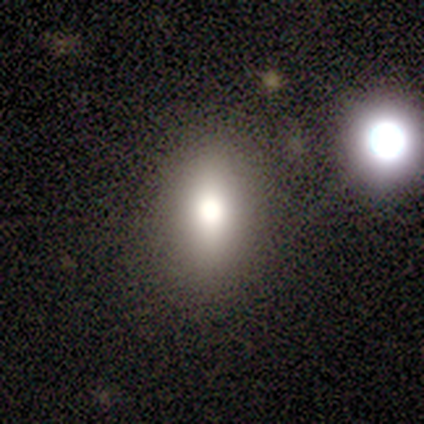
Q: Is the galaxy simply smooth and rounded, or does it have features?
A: smooth — 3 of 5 (60%).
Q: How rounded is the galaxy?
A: in between — 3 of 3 (100%).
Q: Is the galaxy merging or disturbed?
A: none — 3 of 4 (75%).